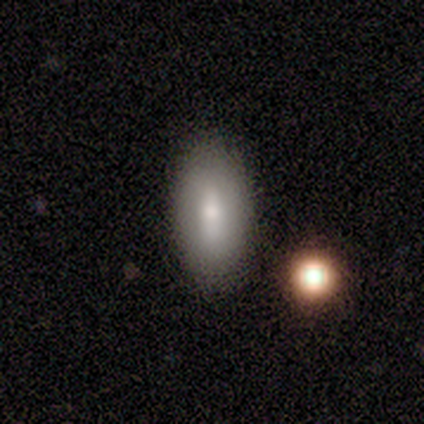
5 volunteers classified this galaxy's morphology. smooth-or-featured: smooth: 80% | featured or disk: 20% | star or artifact: 0%
  how-rounded: in between: 75% | cigar-shaped: 25% | round: 0%
  merging: none: 60% | minor disturbance: 40% | major disturbance: 0% | merger: 0%